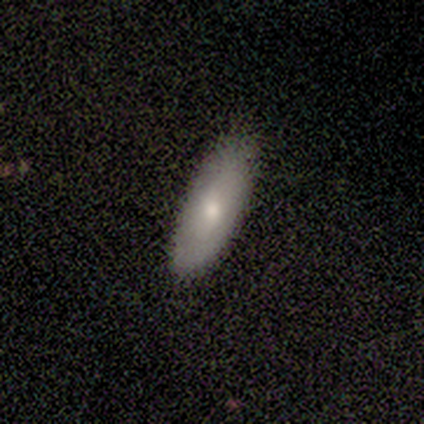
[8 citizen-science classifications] smooth-or-featured: smooth: 62% | featured or disk: 38% | star or artifact: 0%
  how-rounded: in between: 80% | cigar-shaped: 20% | round: 0%
  merging: none: 88% | minor disturbance: 12% | major disturbance: 0% | merger: 0%